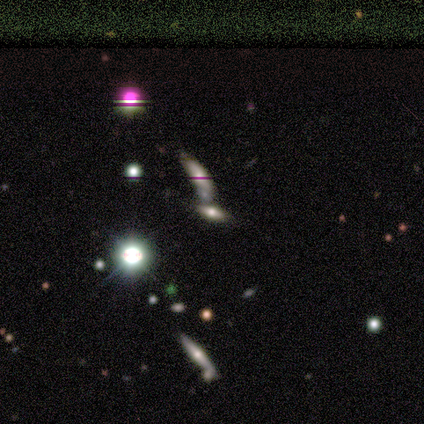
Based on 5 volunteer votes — Smooth or featured?
  - smooth: 40% * (tied)
  - star or artifact: 40% * (tied)
  - featured or disk: 20%
How rounded?
  - in between: 100% *
  - round: 0%
  - cigar-shaped: 0%
Merging?
  - minor disturbance: 67% *
  - merger: 33%
  - none: 0%
  - major disturbance: 0%